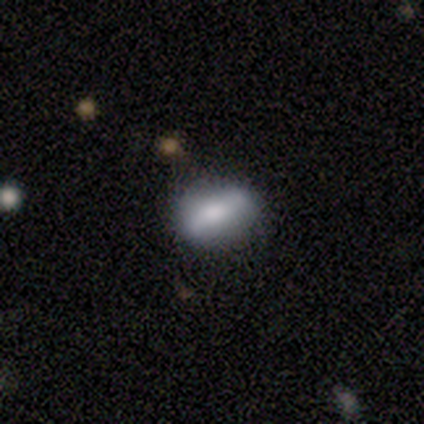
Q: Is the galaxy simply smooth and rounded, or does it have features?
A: smooth — 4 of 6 (67%).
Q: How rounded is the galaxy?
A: cigar-shaped — 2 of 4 (50%).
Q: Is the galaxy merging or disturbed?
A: none — 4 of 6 (67%).